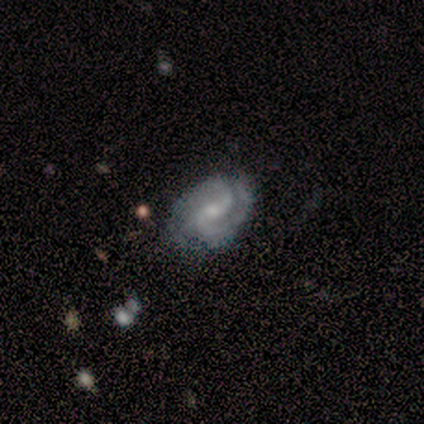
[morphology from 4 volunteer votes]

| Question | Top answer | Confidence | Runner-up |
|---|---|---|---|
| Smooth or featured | featured or disk | 100% | — |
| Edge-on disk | no | 100% | — |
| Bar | no | 75% | weak (25%) |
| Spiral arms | yes | 100% | — |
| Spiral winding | tight | 50% | medium (25%) |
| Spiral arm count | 2 | 100% | — |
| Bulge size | moderate | 50% | tied: small (50%) |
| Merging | none | 75% | minor disturbance (25%) |